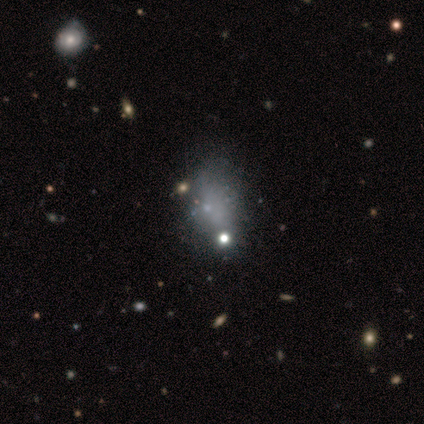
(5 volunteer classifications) Smooth or featured? 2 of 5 (40%, tied with featured or disk) said smooth. How rounded? 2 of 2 (100%) said in between. Merging? 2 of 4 (50%) said merger.